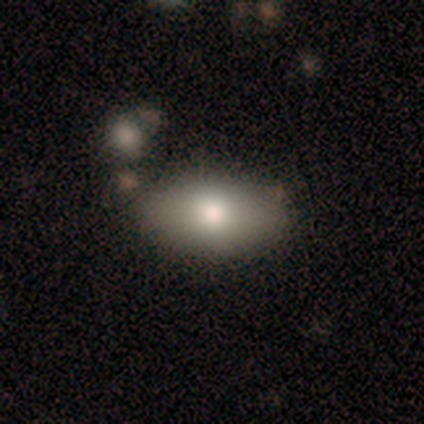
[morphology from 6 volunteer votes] This is clearly a smooth galaxy (100%). How rounded: likely in between (67%). Merging: clearly none (100%).